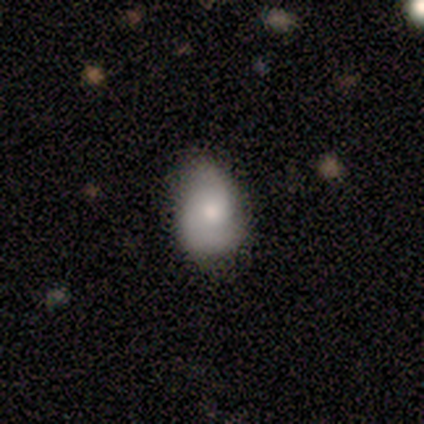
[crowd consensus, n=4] Morphology: type=smooth (75%); roundness=in between (67%); merging=none (50%, tied with minor disturbance).